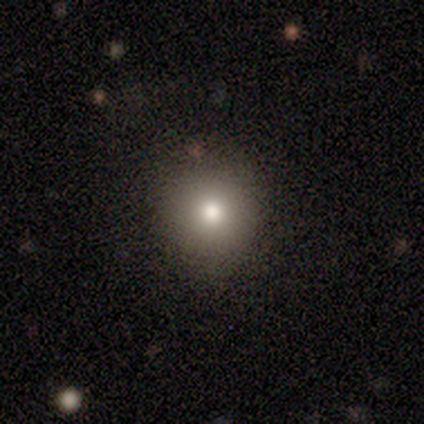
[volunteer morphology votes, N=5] Smooth or featured? smooth (60%)
How rounded? round (67%)
Merging? none (100%)